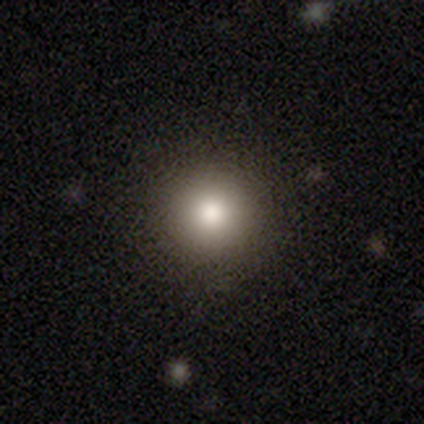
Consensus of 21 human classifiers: Smooth or featured? smooth (71%)
How rounded? round (93%)
Merging? none (94%)